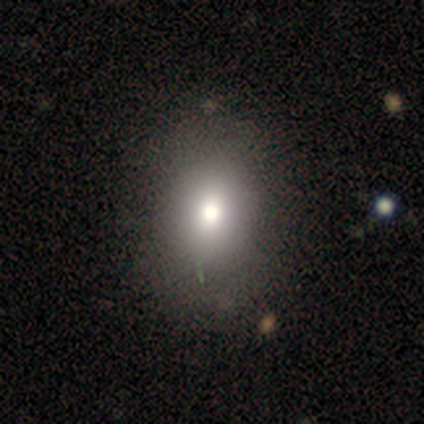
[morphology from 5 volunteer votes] This appears to be a smooth galaxy with no disk features (60%) that is in between round and cigar-shaped (67%). Merging: none (100%).